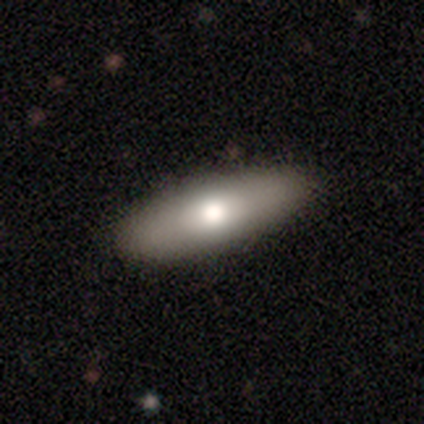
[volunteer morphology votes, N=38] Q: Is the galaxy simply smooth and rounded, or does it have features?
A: smooth — 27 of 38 (71%).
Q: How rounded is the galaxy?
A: cigar-shaped — 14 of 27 (52%).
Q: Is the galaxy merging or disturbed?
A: none — 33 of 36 (92%).